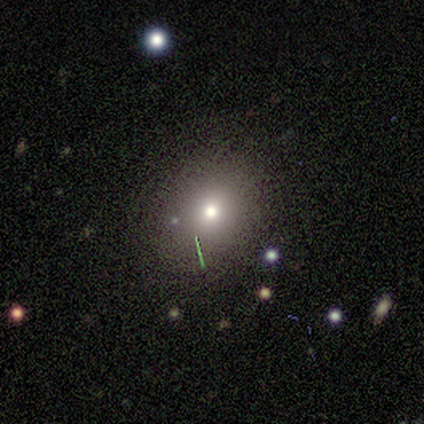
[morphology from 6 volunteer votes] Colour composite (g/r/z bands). It shows a smooth galaxy with no disk features (50%) that is round (100%). Merging: none (100%).